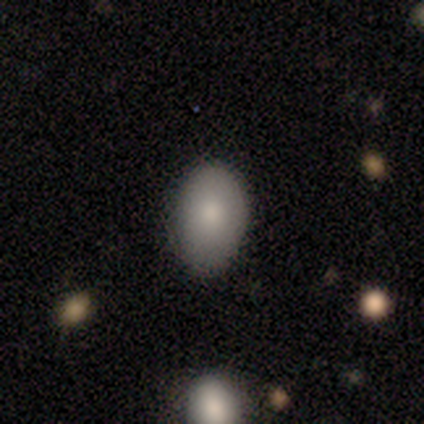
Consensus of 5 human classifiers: A smooth galaxy with no disk features (100%) that is in between round and cigar-shaped (80%).

Vote fractions:
- Smooth or featured? smooth: 100% / featured or disk: 0% / star or artifact: 0%
- How rounded? in between: 80% / round: 20% / cigar-shaped: 0%
- Merging? none: 80% / minor disturbance: 20% / major disturbance: 0% / merger: 0%